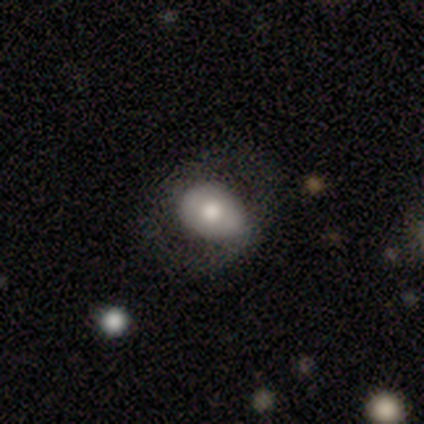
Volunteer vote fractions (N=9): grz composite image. It shows a smooth galaxy with no disk features (56%) that is in between round and cigar-shaped (100%). Merging: none (67%).